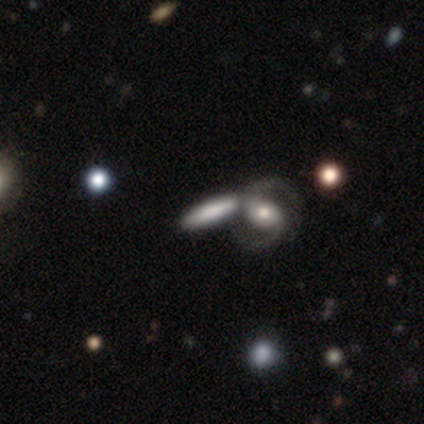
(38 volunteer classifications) Volunteers were most divided on "merging" (2-way tie): none: 47%, merger: 47%, minor disturbance: 3%, major disturbance: 3%. Remaining: spiral arms — yes (100%); spiral arm count — 2 (100%); bulge size — moderate (82%); spiral winding — medium (73%); edge-on disk — no (61%); smooth or featured — featured or disk (47%); bar — no (45%).